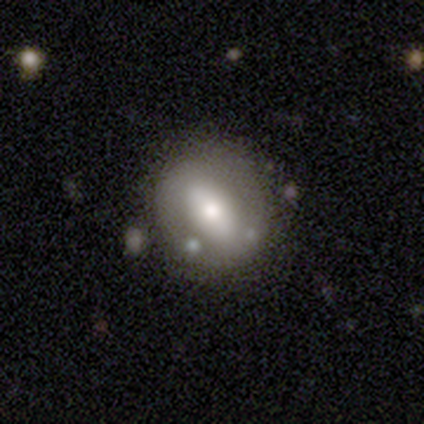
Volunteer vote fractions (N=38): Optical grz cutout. It shows a featured or disk galaxy (53%) with a weak bar (35%, tied with no), no spiral arms (95%) and a moderate central bulge (75%). Merging: none (78%).